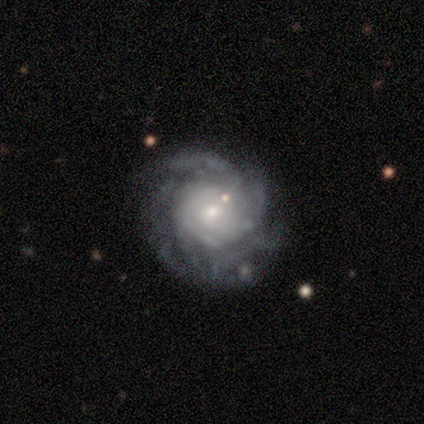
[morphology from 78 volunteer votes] A featured or disk galaxy (94%) with no bar (70%), tight (59%) spiral arms (93%) and a small central bulge (55%). Merging: none (37%).